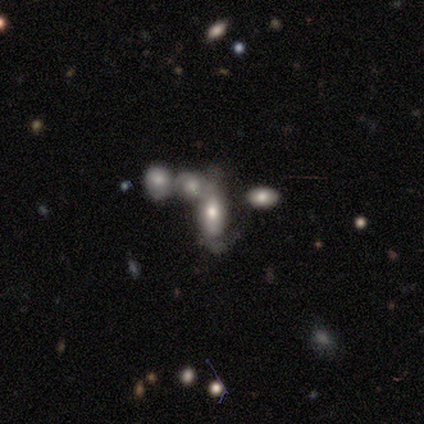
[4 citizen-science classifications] Smooth or featured? featured or disk (75%)
Edge-on disk? no (67%)
Bar? no (100%)
Spiral arms? yes (50%, tied with no)
Spiral winding? tight (100%)
Spiral arm count? 1 (100%)
Bulge size? moderate (50%, tied with small)
Merging? none (50%)